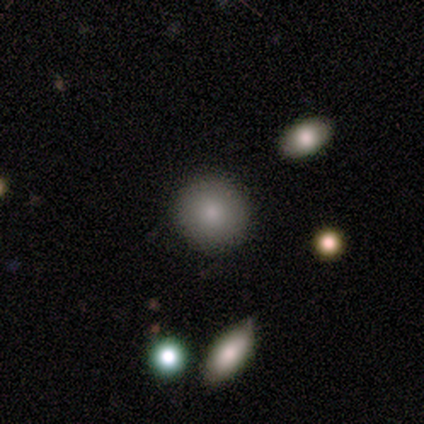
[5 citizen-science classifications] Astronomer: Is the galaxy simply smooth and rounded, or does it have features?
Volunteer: smooth — 80%.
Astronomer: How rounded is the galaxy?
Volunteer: round — 75%.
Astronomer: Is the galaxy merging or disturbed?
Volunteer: none — 100%.